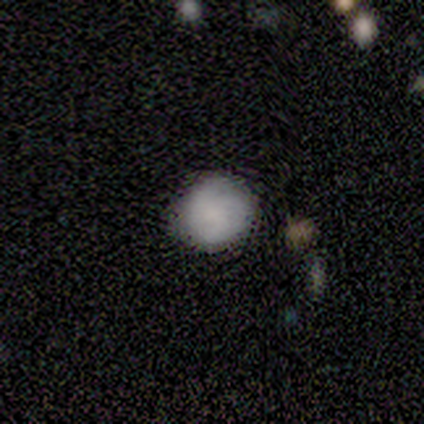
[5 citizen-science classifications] A smooth galaxy with no disk features (80%) that is round (100%). Merging: none (75%).